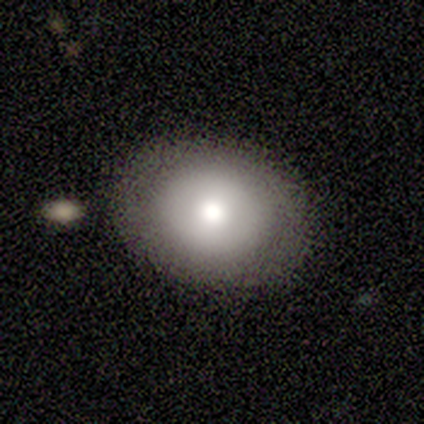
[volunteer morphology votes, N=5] Smooth or featured? 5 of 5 (100%) said smooth. How rounded? 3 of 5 (60%) said round. Merging? 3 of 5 (60%) said none.